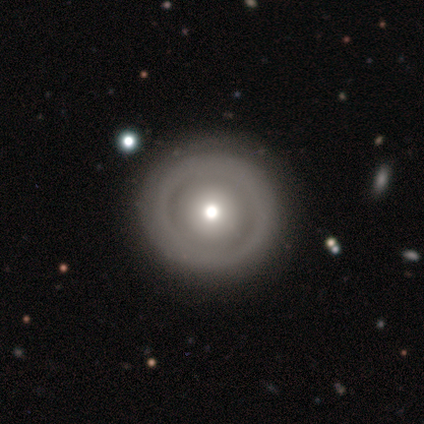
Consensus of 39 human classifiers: Smooth or featured? smooth (51%)
How rounded? round (100%)
Merging? none (90%)